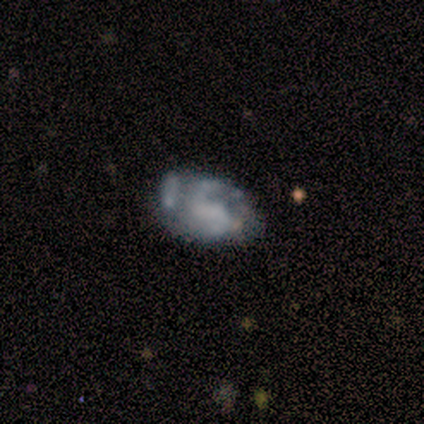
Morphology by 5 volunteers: A featured or disk galaxy (60%) with a weak bar (100%), 2 (100%) medium (67%) spiral arms (100%) and no central bulge (67%). Merging: none (80%).